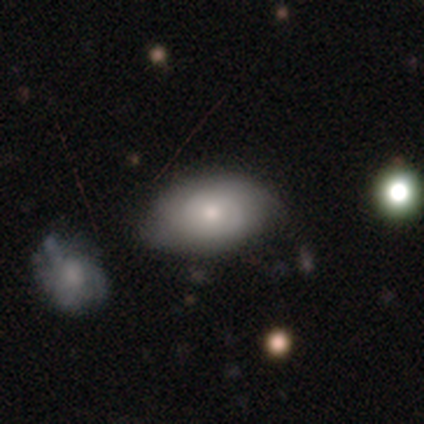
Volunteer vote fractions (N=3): Q: Smooth or featured?
A: smooth (100%)
Q: How rounded?
A: in between (100%)
Q: Merging?
A: none (67%); runner-up: minor disturbance (33%)